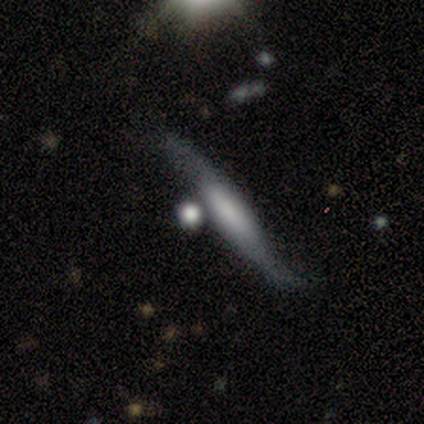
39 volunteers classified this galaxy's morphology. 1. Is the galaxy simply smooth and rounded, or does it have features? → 64% featured or disk, 31% smooth, 5% star or artifact.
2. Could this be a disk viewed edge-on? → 72% yes, 28% no.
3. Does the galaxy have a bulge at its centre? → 33% boxy (tied), 33% none (tied), 33% rounded (tied).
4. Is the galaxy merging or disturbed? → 38% none, 35% minor disturbance, 16% major disturbance, 11% merger.